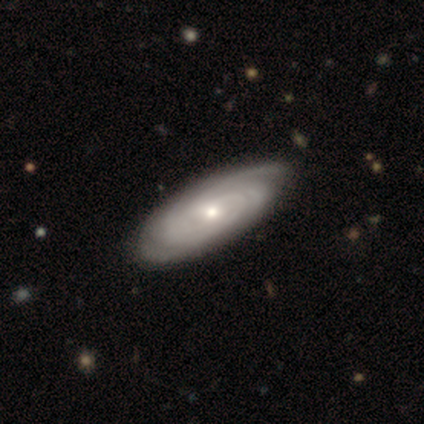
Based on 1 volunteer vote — Consensus on every question: smooth or featured — featured or disk (100%); edge-on disk — no (100%); bar — weak (100%); spiral arms — yes (100%); spiral winding — tight (100%); spiral arm count — more than 4 (100%); bulge size — moderate (100%); merging — none (100%).